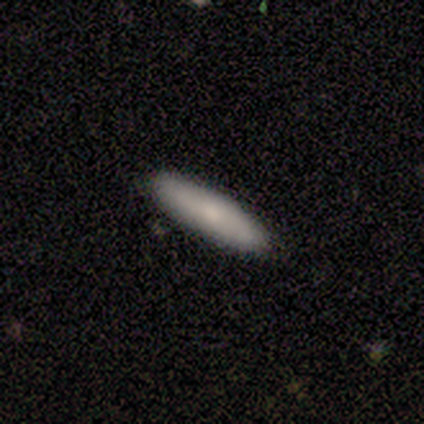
Smooth or featured: smooth — 68% (featured or disk — 25%)
How rounded: cigar-shaped — 85% (in between — 15%)
Merging: none — 92% (minor disturbance — 8%)